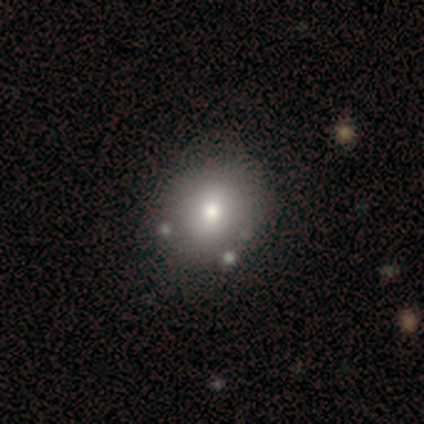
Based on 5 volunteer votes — smooth_or_featured: smooth (p=0.60) [alt: featured or disk p=0.20]
how_rounded: round (p=0.67) [alt: in between p=0.33]
merging: none (p=0.50) [alt: minor disturbance p=0.25]